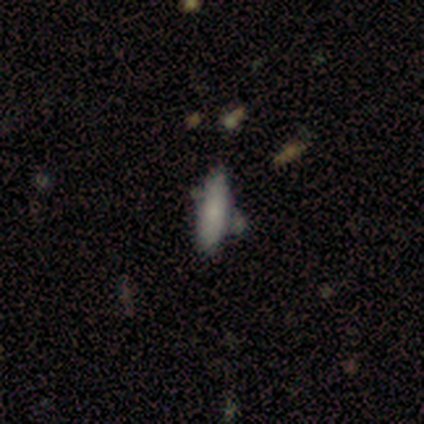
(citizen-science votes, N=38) A smooth galaxy with no disk features (82%) that is cigar-shaped (61%). Merging: none (66%).